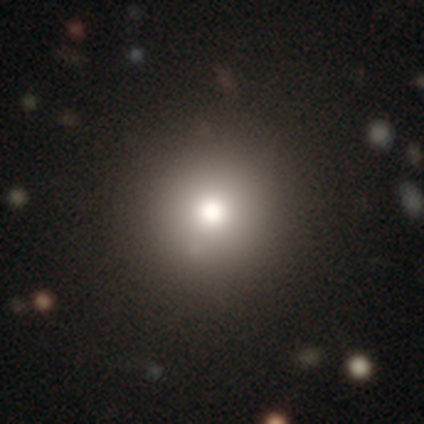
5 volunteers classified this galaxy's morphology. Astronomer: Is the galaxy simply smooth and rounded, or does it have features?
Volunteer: smooth — 100%.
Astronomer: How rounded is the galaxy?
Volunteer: round — 100%.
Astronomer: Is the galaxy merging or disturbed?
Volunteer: none — 80%.